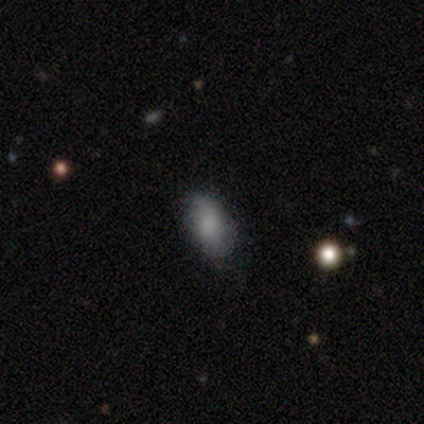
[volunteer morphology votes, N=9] This appears to be a smooth galaxy with no disk features (67%) that is in between round and cigar-shaped (83%). Merging: none (50%).